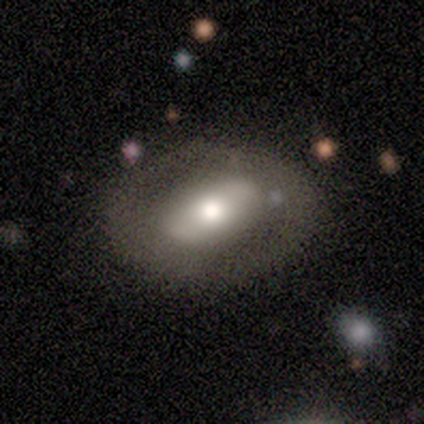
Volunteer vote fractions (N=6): Overall: featured or disk (83%). Edge-on disk: no (100%). Bar: strong (40%, tied with weak). Spiral arms: no (80%). Bulge size: moderate (80%). Merging: none (83%).